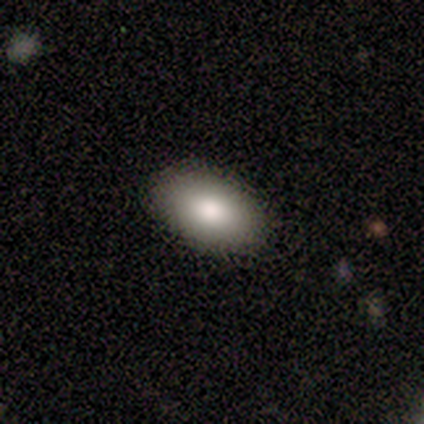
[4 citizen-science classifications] smooth 100%, featured or disk 0%, star or artifact 0%. Down the decision tree: how rounded — in between (100%); merging — none (100%).